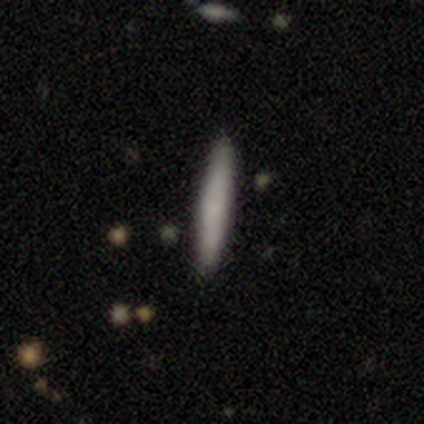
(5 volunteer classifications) Smooth or featured?
  - smooth: 60% *
  - featured or disk: 40%
  - star or artifact: 0%
How rounded?
  - cigar-shaped: 100% *
  - round: 0%
  - in between: 0%
Merging?
  - none: 80% *
  - minor disturbance: 20%
  - major disturbance: 0%
  - merger: 0%